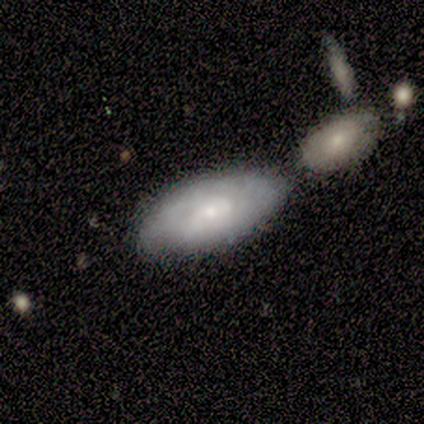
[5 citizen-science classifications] A featured or disk galaxy (60%) with a weak bar (67%), 2 (50%, tied with can't tell) tight (50%, tied with medium) spiral arms (67%) and a small central bulge (67%). Merging: none (80%).